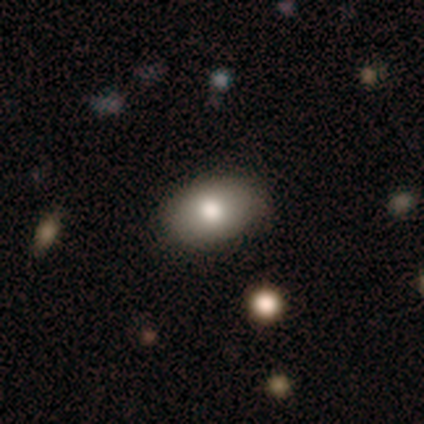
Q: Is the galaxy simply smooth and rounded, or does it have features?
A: smooth — 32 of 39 (82%).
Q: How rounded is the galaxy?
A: in between — 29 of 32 (91%).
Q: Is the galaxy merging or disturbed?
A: none — 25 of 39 (64%).